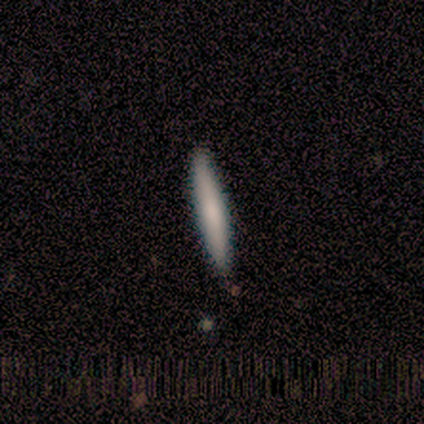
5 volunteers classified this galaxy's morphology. Smooth or featured?
  - smooth: 80% *
  - featured or disk: 20%
  - star or artifact: 0%
How rounded?
  - cigar-shaped: 100% *
  - round: 0%
  - in between: 0%
Merging?
  - none: 80% *
  - minor disturbance: 20%
  - major disturbance: 0%
  - merger: 0%